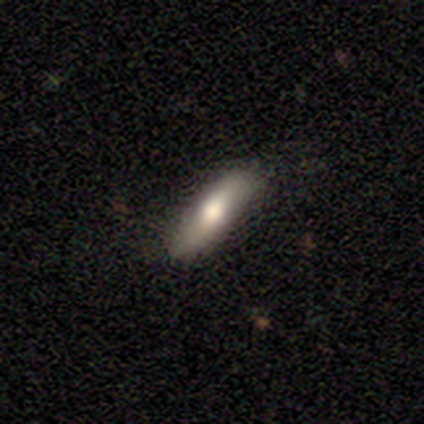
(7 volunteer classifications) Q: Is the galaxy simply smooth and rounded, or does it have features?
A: smooth — 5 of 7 (71%).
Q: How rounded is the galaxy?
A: in between — 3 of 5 (60%).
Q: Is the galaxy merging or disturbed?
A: none — 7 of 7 (100%).